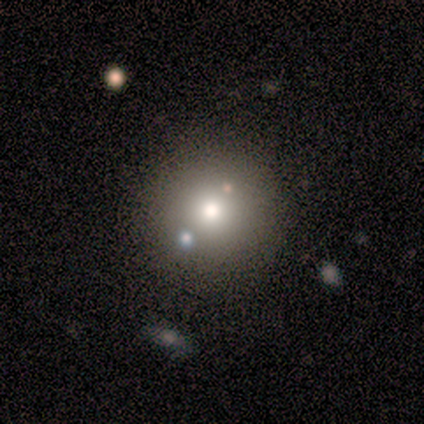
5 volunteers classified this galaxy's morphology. Q: Smooth or featured?
A: smooth (40%); tied with: star or artifact (40%)
Q: How rounded?
A: round (100%)
Q: Merging?
A: none (100%)